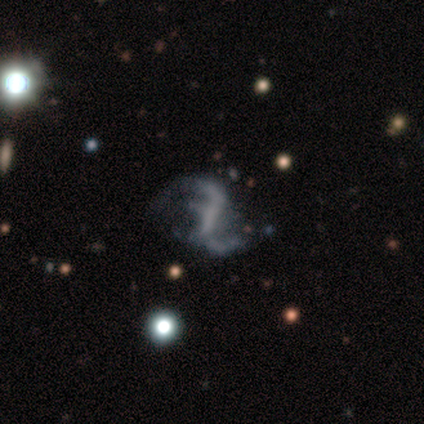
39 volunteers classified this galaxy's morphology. Volunteers were most divided on "bar": strong: 38%, no: 35%, weak: 26%. More confident: edge-on disk — no (100%); spiral arms — yes (91%); bulge size — none (88%); smooth or featured — featured or disk (87%); spiral winding — loose (81%); spiral arm count — 2 (81%); merging — none (51%).